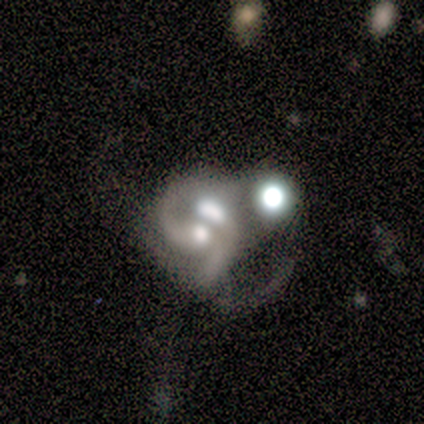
smooth-or-featured: featured or disk: 88% | smooth: 12% | star or artifact: 0%
  disk-edge-on: no: 100% | yes: 0%
    bar: no: 71% | weak: 29% | strong: 0%
    has-spiral-arms: yes: 71% | no: 29%
      spiral-winding: loose: 80% | medium: 20% | tight: 0%
      spiral-arm-count: 2: 40% (tied) | can't tell: 40% (tied) | 1: 20% | 3: 0% | 4: 0% | more than 4: 0%
    bulge-size: large: 43% (tied) | moderate: 43% (tied) | small: 14% | dominant: 0% | none: 0%
  merging: merger: 62% | major disturbance: 25% | minor disturbance: 12% | none: 0%